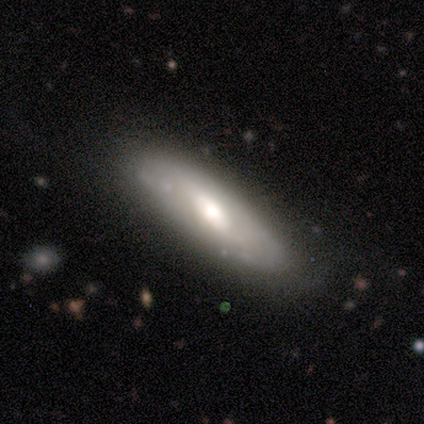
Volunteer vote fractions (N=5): Overall: featured or disk (80%). Edge-on disk: yes (75%). Edge-on bulge: rounded (100%). Merging: none (50%; minor disturbance 25%).